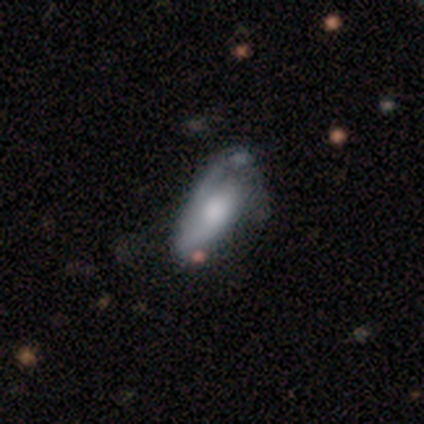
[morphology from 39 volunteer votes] smooth_or_featured: featured or disk (p=0.67) [alt: smooth p=0.31]
disk_edge_on: no (p=0.96) [alt: yes p=0.04]
bar: no (p=0.80) [alt: weak p=0.16]
has_spiral_arms: yes (p=0.84) [alt: no p=0.16]
spiral_winding: medium (p=0.43) [alt: tight p=0.33]
spiral_arm_count: 2 (p=0.48) [alt: 1 p=0.38]
bulge_size: large (p=0.36) [alt: small p=0.24]
merging: minor disturbance (p=0.50) [alt: none p=0.26]